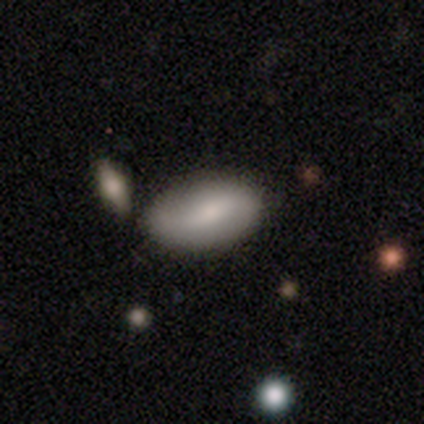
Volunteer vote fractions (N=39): Morphology: type=smooth (54%); roundness=in between (95%); merging=none (74%).